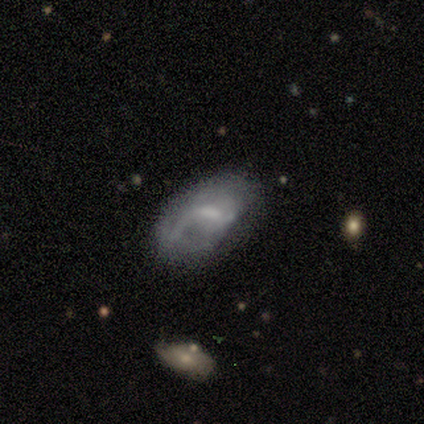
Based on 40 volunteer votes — featured or disk 60%, smooth 35%, star or artifact 5%. Down the decision tree: edge-on disk — no (100%); bar — weak (75%); spiral arms — yes (71%); spiral arm count — 1 (59%); spiral winding — loose (47%); bulge size — small (50%); merging — none (39%).